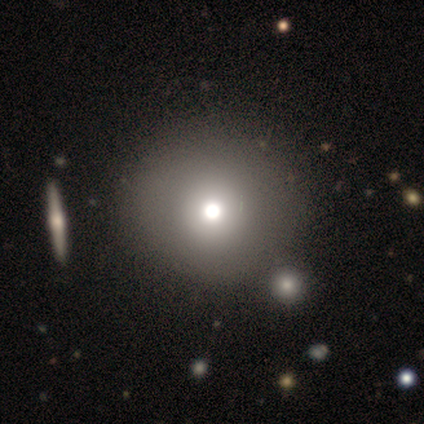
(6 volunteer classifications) Smooth or featured? 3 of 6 (50%) said smooth. How rounded? 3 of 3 (100%) said round. Merging? 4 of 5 (80%) said none.